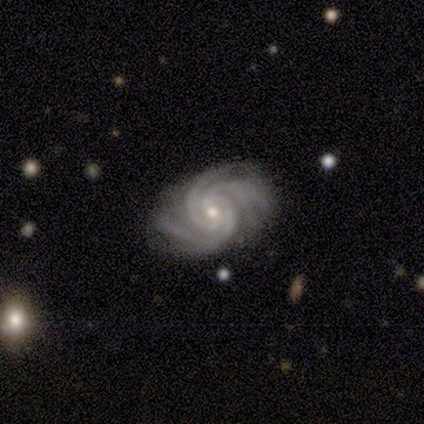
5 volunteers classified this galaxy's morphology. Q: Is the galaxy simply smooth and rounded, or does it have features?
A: featured or disk — 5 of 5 (100%).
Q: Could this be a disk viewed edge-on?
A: no — 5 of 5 (100%).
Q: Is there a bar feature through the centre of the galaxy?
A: weak — 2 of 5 (40%, tied with no).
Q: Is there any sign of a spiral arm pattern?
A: yes — 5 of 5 (100%).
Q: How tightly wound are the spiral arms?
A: tight — 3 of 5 (60%).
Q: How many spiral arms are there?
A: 3 — 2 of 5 (40%, tied with 4).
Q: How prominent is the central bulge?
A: small — 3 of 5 (60%).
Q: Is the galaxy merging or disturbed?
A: none — 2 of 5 (40%, tied with minor disturbance).